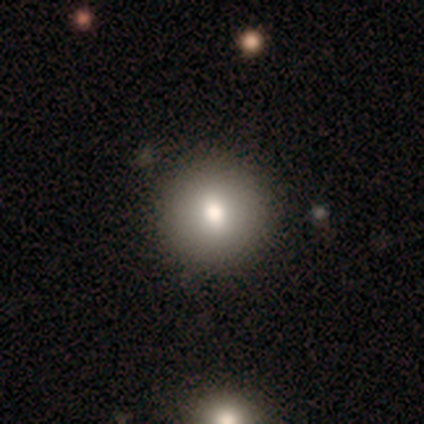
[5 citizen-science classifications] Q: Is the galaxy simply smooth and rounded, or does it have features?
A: smooth — 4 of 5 (80%).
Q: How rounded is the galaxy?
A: round — 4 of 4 (100%).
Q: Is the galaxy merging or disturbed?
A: none — 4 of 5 (80%).